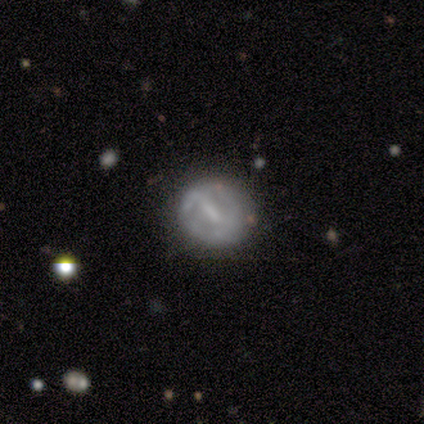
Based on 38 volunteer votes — Overall: featured or disk (66%; smooth 29%). Edge-on disk: no (100%). Bar: strong (48%; weak 40%). Spiral arms: no (64%; yes 36%). Bulge size: none (56%; small 28%). Merging: none (69%).